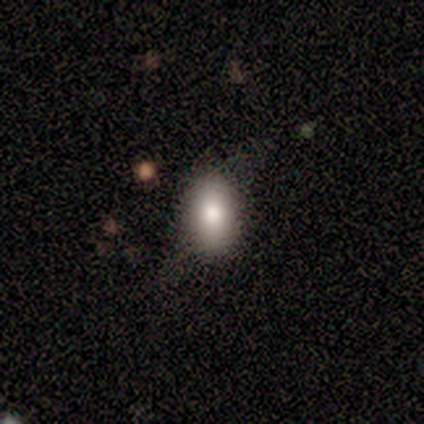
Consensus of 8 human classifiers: smooth-or-featured: smooth: 38% (tied) | featured or disk: 38% (tied) | star or artifact: 25%
  how-rounded: in between: 67% | round: 33% | cigar-shaped: 0%
  merging: minor disturbance: 67% | none: 33% | major disturbance: 0% | merger: 0%